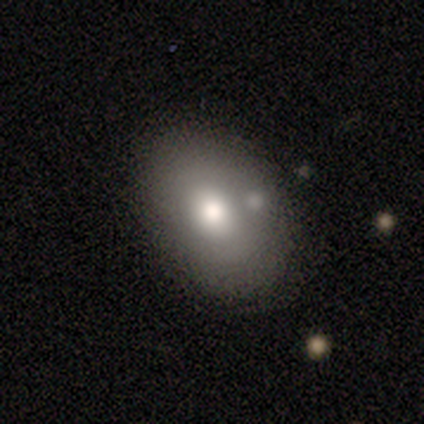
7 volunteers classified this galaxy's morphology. Volunteers were most divided on "smooth or featured": smooth: 71%, featured or disk: 14%, star or artifact: 14%. More confident: how rounded — in between (100%); merging — minor disturbance (83%).